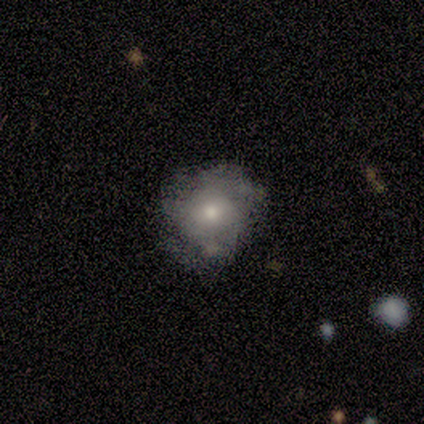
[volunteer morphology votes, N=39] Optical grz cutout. It shows a smooth galaxy with no disk features (49%) that is round (63%). Merging: none (60%).